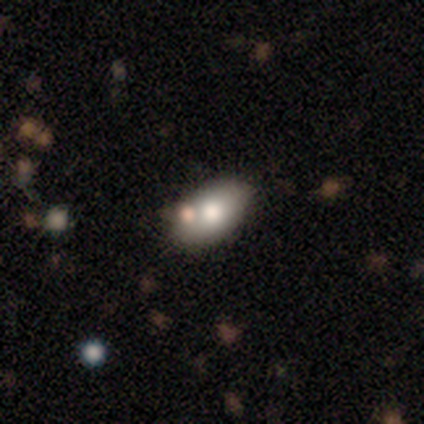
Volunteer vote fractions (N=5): A smooth galaxy with no disk features (80%) that is in between round and cigar-shaped (75%). Merging: none (80%).